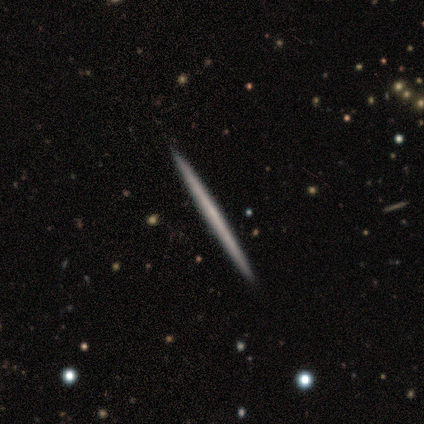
A featured or disk galaxy (60%) viewed edge-on (100%) with no central bulge (100%).

Vote fractions:
- Smooth or featured? featured or disk: 60% / smooth: 20% / star or artifact: 20%
- Edge-on disk? yes: 100% / no: 0%
- Edge-on bulge? none: 100% / boxy: 0% / rounded: 0%
- Merging? none: 100% / minor disturbance: 0% / major disturbance: 0% / merger: 0%